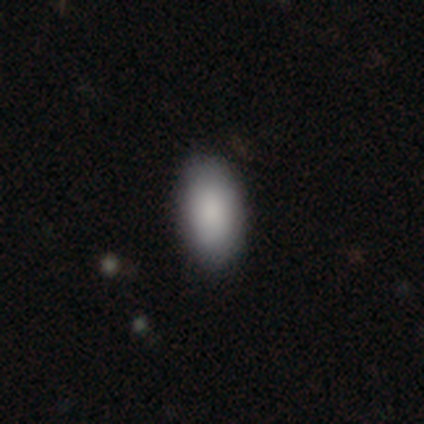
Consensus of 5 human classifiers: smooth 100%, featured or disk 0%, star or artifact 0%. Down the decision tree: how rounded — in between (100%); merging — none (100%).